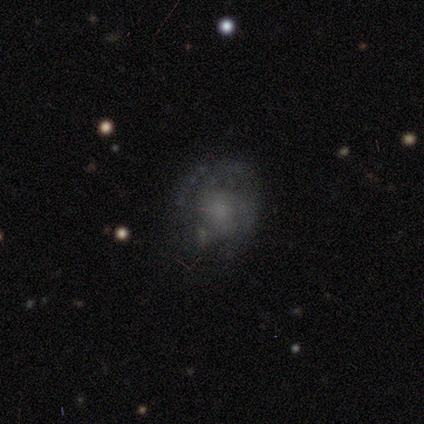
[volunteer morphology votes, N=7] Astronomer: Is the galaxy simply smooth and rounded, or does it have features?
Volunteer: smooth — 43%, tied with star or artifact at 43%.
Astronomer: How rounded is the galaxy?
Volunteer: round — 100%.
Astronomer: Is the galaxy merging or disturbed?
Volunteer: none — 75%.